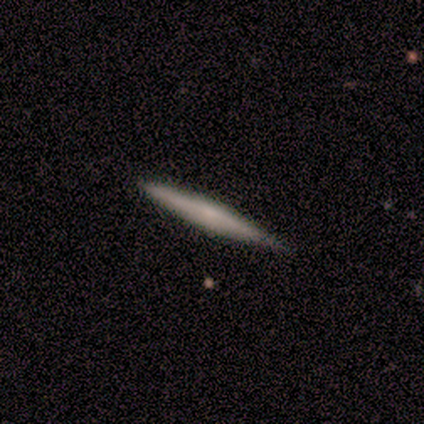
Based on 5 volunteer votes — Smooth or featured?
  - featured or disk: 60% *
  - smooth: 40%
  - star or artifact: 0%
Edge-on disk?
  - yes: 100% *
  - no: 0%
Edge-on bulge?
  - none: 100% *
  - boxy: 0%
  - rounded: 0%
Merging?
  - none: 100% *
  - minor disturbance: 0%
  - major disturbance: 0%
  - merger: 0%